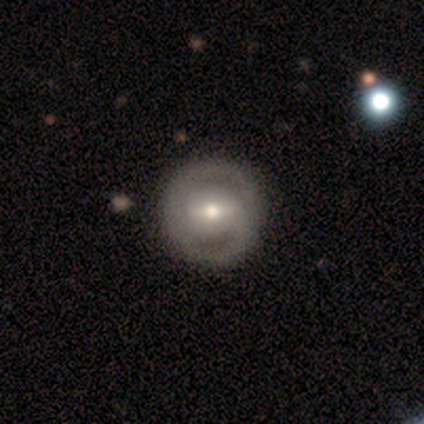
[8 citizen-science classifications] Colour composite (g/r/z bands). It shows a featured or disk galaxy (100%) with a strong bar (50%, tied with weak), 2 (100%) medium (67%) spiral arms (75%) and a moderate central bulge (50%). Merging: none (100%).